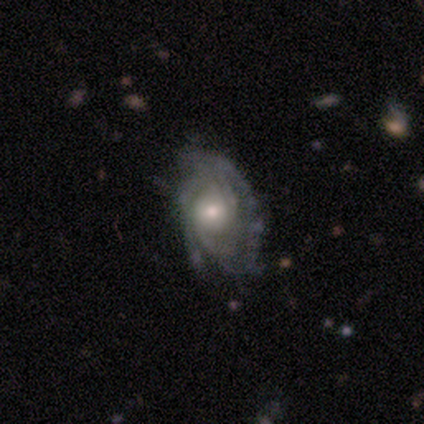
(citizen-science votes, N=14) A featured or disk galaxy (79%) with no bar (73%), tight (73%) spiral arms (100%) and a small central bulge (45%).

Vote fractions:
- Smooth or featured? featured or disk: 79% / smooth: 21% / star or artifact: 0%
- Edge-on disk? no: 100% / yes: 0%
- Bar? no: 73% / weak: 18% / strong: 9%
- Spiral arms? yes: 100% / no: 0%
- Spiral winding? tight: 73% / medium: 27% / loose: 0%
- Spiral arm count? can't tell: 36% / 2: 27% / 3: 27% / 4: 9% / 1: 0% / more than 4: 0%
- Bulge size? small: 45% / moderate: 36% / dominant: 9% / none: 9% / large: 0%
- Merging? none: 79% / minor disturbance: 21% / major disturbance: 0% / merger: 0%